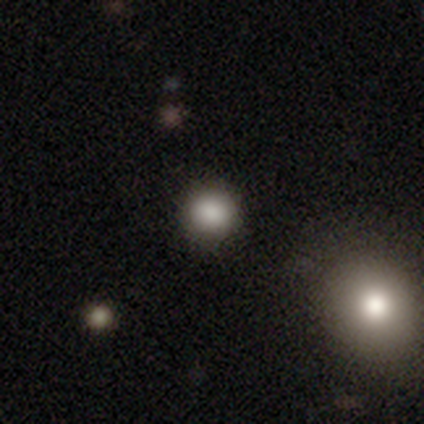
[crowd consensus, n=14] This appears to be a smooth galaxy with no disk features (86%) that is round (100%). Merging: none (100%).